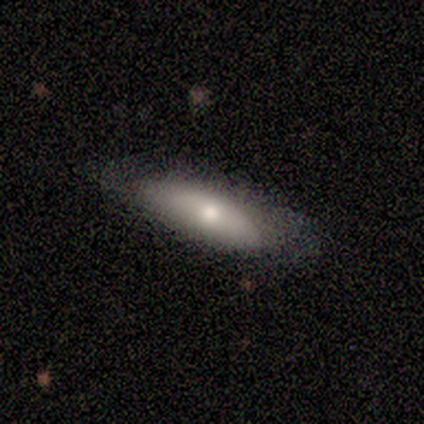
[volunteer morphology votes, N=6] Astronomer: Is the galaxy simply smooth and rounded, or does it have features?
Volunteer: smooth — 83%.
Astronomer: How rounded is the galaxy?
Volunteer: cigar-shaped — 80%.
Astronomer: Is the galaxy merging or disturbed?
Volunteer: none — 83%.